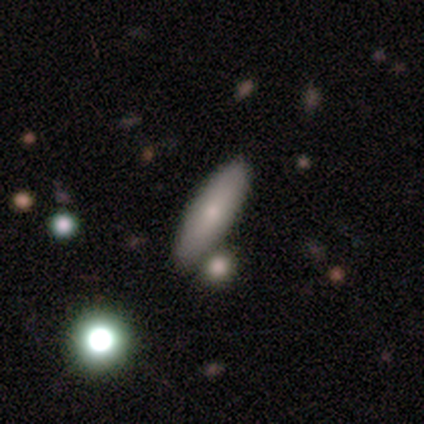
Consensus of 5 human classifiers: A smooth galaxy with no disk features (60%) that is cigar-shaped (67%). Merging: none (80%).